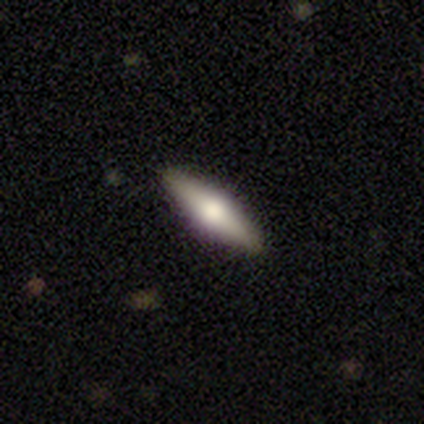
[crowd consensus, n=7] Smooth or featured: smooth — 57% (featured or disk — 43%)
How rounded: cigar-shaped — 75% (in between — 25%)
Merging: none — 71% (minor disturbance — 14%)